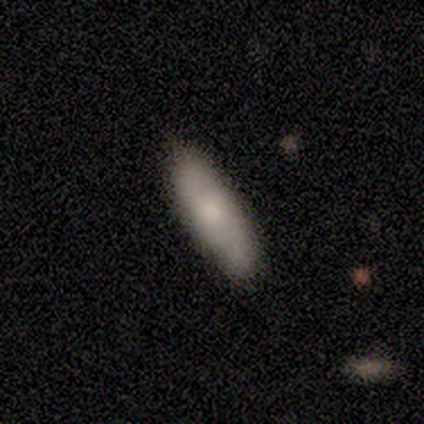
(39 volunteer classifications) Morphology: type=smooth (67%); roundness=cigar-shaped (62%); merging=none (54%).